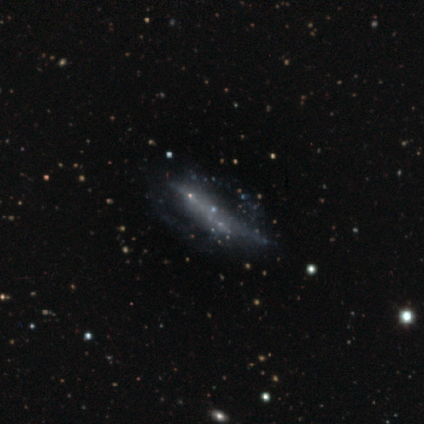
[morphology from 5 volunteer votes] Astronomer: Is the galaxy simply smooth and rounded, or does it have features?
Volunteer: featured or disk — 80%.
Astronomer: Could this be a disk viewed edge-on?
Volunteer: no — 75%.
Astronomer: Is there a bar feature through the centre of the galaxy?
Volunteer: strong — 67%.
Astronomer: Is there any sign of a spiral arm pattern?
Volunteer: no — 100%.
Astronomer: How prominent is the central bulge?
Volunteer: none — 100%.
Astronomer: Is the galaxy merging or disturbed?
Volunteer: none — 75%.